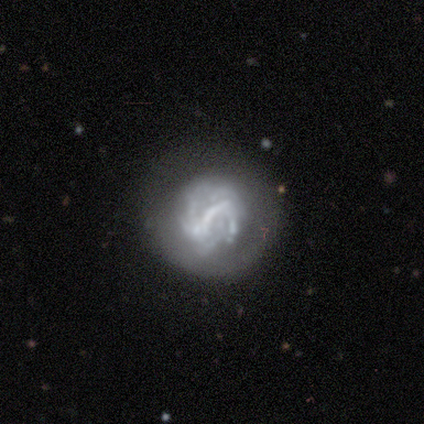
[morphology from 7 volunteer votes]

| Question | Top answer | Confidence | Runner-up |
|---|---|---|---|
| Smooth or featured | featured or disk | 71% | smooth (14%) |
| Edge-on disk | no | 100% | — |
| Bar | strong | 60% | no (40%) |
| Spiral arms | yes | 80% | no (20%) |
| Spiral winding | loose | 75% | tight (25%) |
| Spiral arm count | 1 | 50% | 2 (25%) |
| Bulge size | none | 80% | large (20%) |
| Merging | none | 83% | major disturbance (17%) |